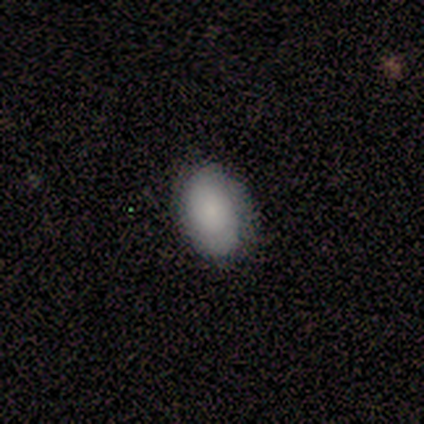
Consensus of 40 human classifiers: Volunteers were most divided on "smooth or featured": smooth: 75%, featured or disk: 12%, star or artifact: 12%. More confident: how rounded — in between (90%); merging — none (80%).